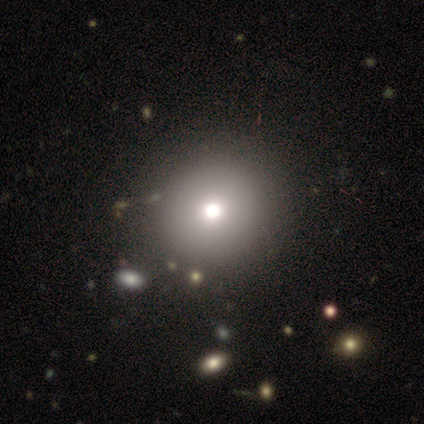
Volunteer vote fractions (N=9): smooth 67%, featured or disk 22%, star or artifact 11%. Down the decision tree: how rounded — round (100%); merging — none (100%).